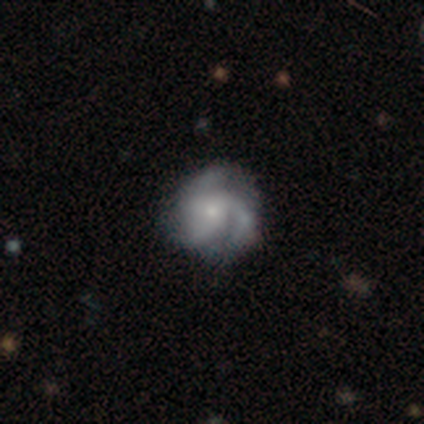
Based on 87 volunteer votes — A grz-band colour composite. It shows a featured or disk galaxy (82%) with no bar (82%), 3 (85%) medium (45%) spiral arms (93%) and a small central bulge (75%). Merging: none (73%).